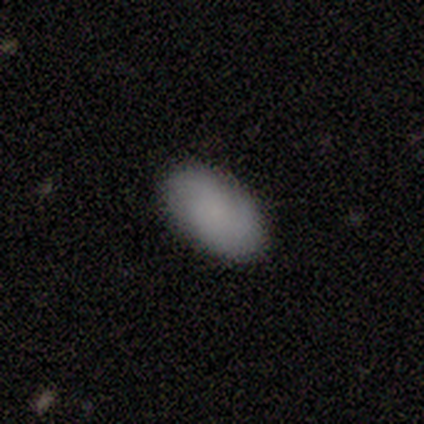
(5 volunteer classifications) Morphology: type=smooth (100%); roundness=in between (100%); merging=none (100%).